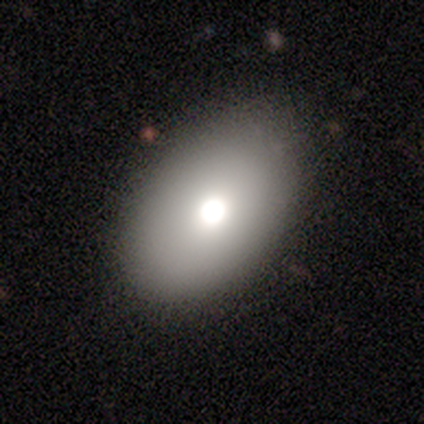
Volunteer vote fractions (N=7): A smooth galaxy with no disk features (71%) that is in between round and cigar-shaped (100%).

Vote fractions:
- Smooth or featured? smooth: 71% / featured or disk: 29% / star or artifact: 0%
- How rounded? in between: 100% / round: 0% / cigar-shaped: 0%
- Merging? none: 86% / major disturbance: 14% / minor disturbance: 0% / merger: 0%